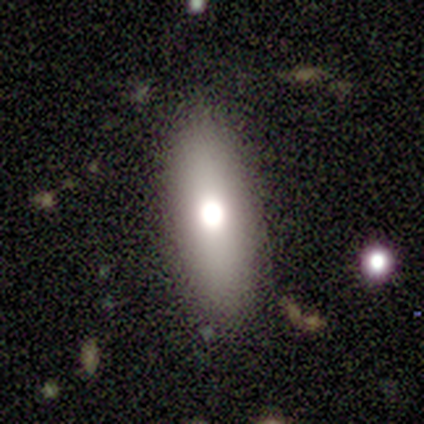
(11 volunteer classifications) smooth_or_featured: smooth (p=0.73) [alt: featured or disk p=0.27]
how_rounded: cigar-shaped (p=0.75) [alt: in between p=0.25]
merging: none (p=1.00)